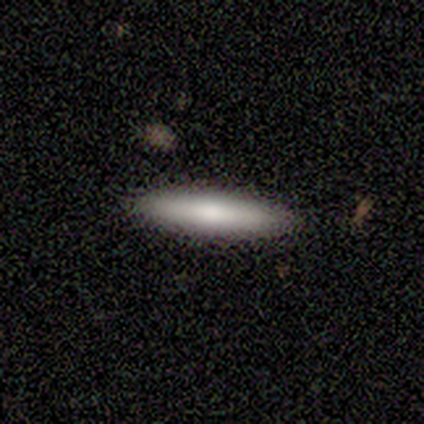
This appears to be a smooth galaxy with no disk features (100%) that is cigar-shaped (88%). Merging: none (100%).